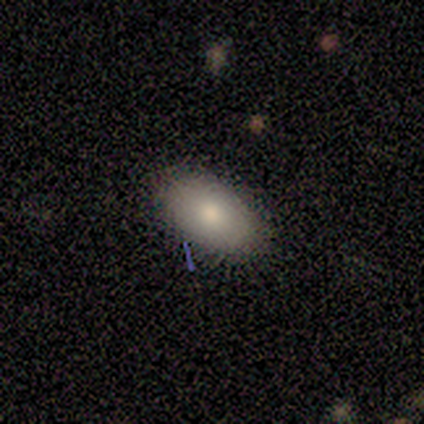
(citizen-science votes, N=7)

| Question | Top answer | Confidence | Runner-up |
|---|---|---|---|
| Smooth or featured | smooth | 86% | featured or disk (14%) |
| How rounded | in between | 83% | round (17%) |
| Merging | none | 71% | minor disturbance (14%) |